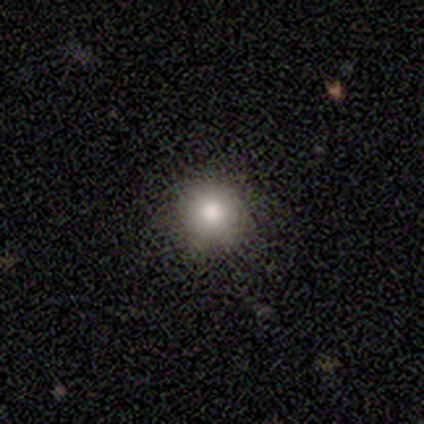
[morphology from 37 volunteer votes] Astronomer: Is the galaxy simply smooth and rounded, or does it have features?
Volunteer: smooth — 81%.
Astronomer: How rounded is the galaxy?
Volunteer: round — 97%.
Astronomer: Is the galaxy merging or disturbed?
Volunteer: none — 97%.